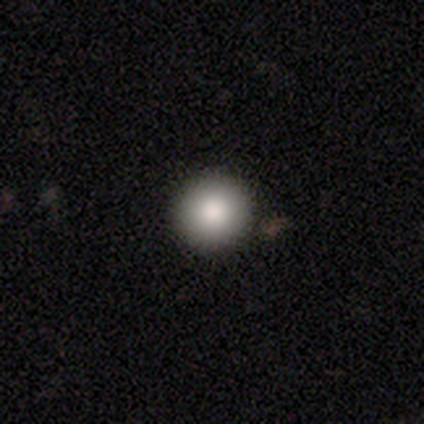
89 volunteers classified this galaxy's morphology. Overall: smooth (84%). How rounded: round (97%). Merging: none (94%).